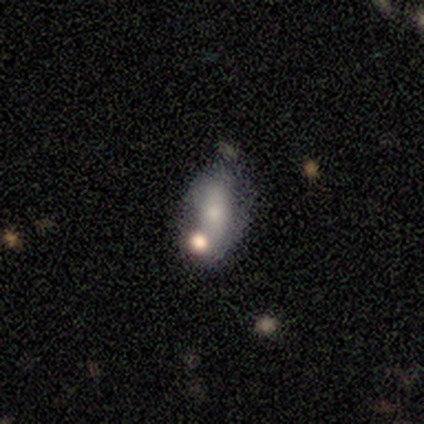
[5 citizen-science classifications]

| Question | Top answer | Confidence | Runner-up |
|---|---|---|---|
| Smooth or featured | smooth | 60% | featured or disk (40%) |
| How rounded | in between | 100% | — |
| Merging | minor disturbance | 60% | none (20%) |